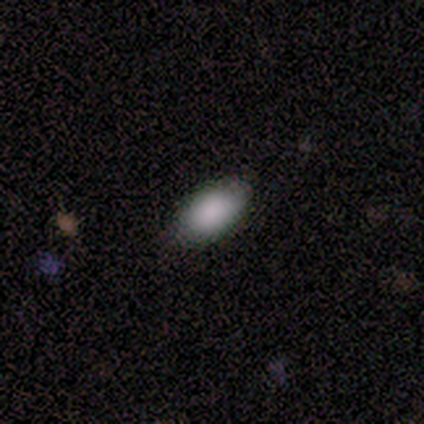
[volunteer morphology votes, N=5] smooth 80%, featured or disk 20%, star or artifact 0%. Down the decision tree: how rounded — in between (100%); merging — none (80%).